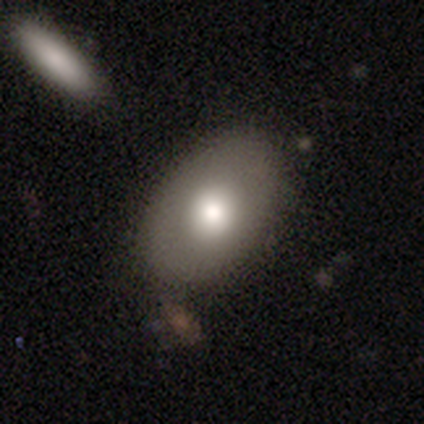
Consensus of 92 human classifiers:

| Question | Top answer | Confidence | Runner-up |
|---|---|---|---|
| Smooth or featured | smooth | 66% | featured or disk (29%) |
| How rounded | in between | 87% | round (13%) |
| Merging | none | 75% | minor disturbance (10%) |